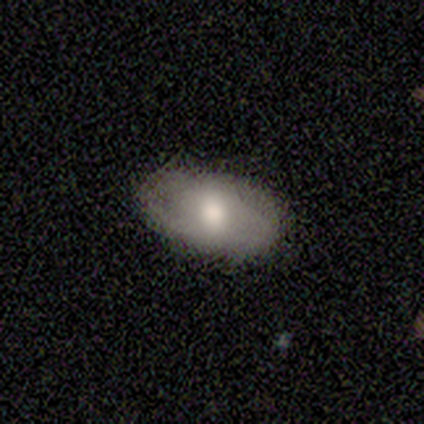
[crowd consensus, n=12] This appears to be a smooth galaxy with no disk features (75%) that is in between round and cigar-shaped (100%). Merging: none (75%).